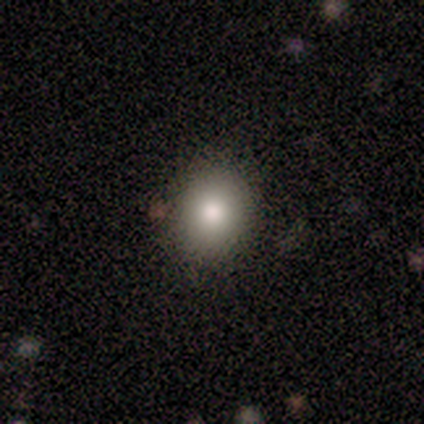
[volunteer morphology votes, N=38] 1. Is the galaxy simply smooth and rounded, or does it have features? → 87% smooth, 11% featured or disk, 3% star or artifact.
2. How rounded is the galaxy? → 58% in between, 42% round, 0% cigar-shaped.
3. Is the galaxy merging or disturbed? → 86% none, 11% minor disturbance, 3% merger, 0% major disturbance.